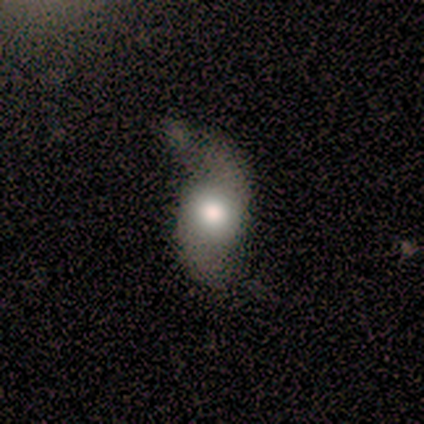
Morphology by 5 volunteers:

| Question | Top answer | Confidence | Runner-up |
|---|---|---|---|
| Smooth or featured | smooth | 100% | — |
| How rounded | round | 60% | in between (40%) |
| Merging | major disturbance | 60% | none (20%) |